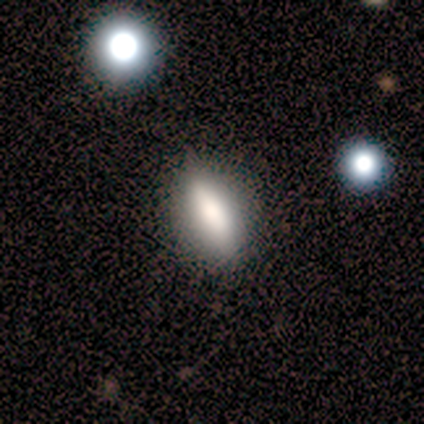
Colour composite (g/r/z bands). It shows a smooth galaxy with no disk features (100%) that is cigar-shaped (60%). Merging: none (80%).